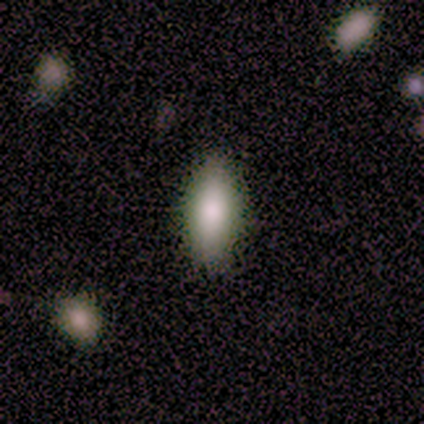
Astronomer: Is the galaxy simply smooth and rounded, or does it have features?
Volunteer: smooth — 80%.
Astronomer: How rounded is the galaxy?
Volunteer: in between — 100%.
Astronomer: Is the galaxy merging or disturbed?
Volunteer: none — 100%.